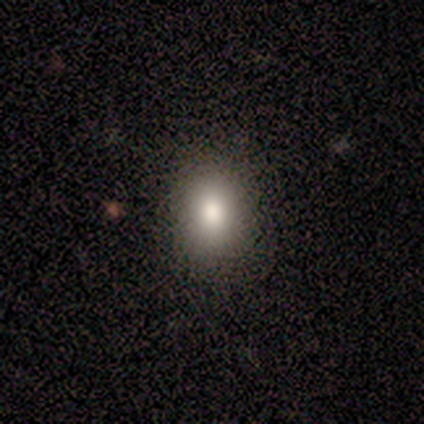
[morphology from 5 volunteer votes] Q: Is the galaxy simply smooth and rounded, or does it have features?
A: star or artifact — 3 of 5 (60%).